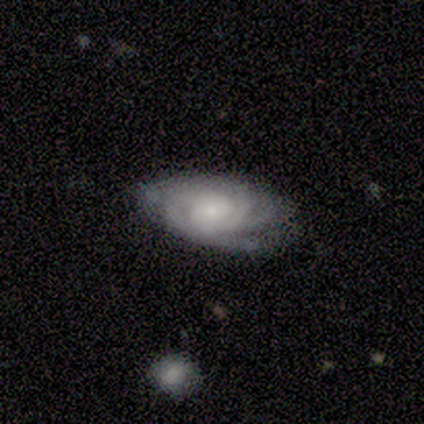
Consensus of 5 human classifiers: A featured or disk galaxy (100%) with a weak bar (60%), tight (80%) spiral arms (100%) and a small central bulge (60%). Merging: none (80%).